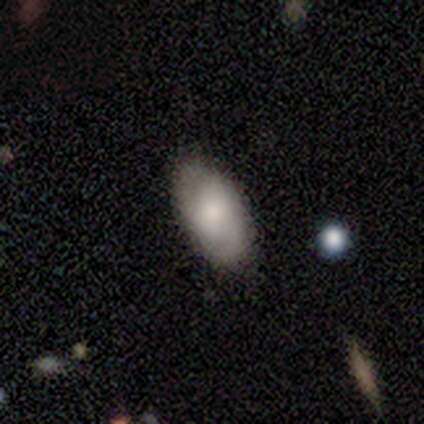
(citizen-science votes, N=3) This appears to be a smooth galaxy with no disk features (33%, tied with featured or disk and star or artifact) that is in between round and cigar-shaped (100%). Merging: none (100%).